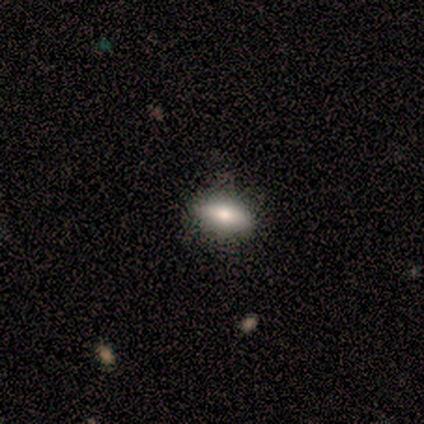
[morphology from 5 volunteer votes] type=smooth (80%); roundness=in between (75%); merging=none (100%).